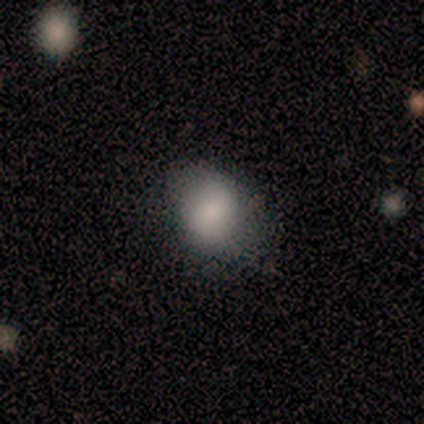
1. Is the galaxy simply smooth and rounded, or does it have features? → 67% smooth, 33% featured or disk, 0% star or artifact.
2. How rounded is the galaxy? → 75% round, 25% in between, 0% cigar-shaped.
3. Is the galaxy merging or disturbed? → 100% none, 0% minor disturbance, 0% major disturbance, 0% merger.